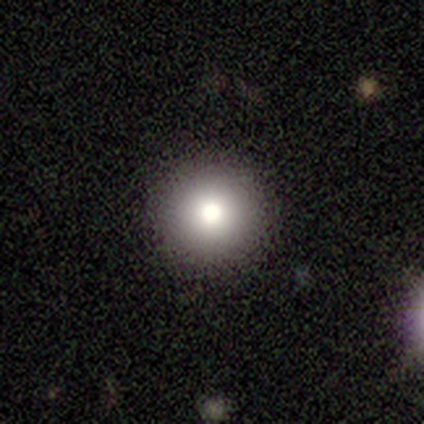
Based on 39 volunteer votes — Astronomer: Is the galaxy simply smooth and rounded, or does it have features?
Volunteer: smooth — 74%.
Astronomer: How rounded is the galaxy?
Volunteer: round — 100%.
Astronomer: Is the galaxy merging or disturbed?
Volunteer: none — 94%.